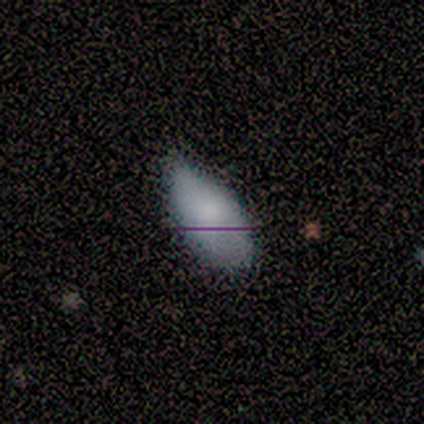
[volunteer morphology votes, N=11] This appears to be a smooth galaxy with no disk features (91%) that is in between round and cigar-shaped (100%). Merging: none (50%, tied with minor disturbance).